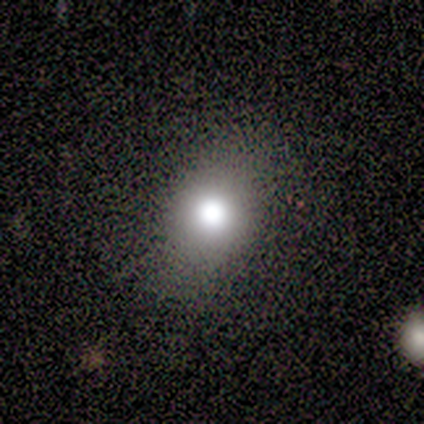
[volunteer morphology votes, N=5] type=smooth (100%); roundness=in between (60%); merging=none (100%).